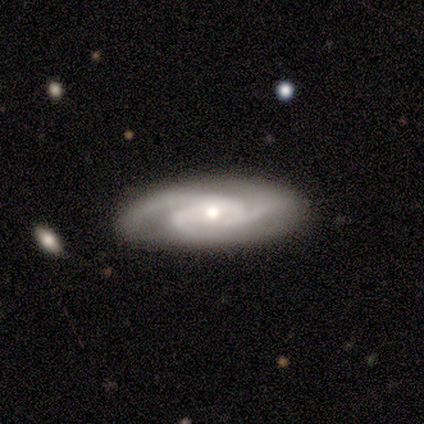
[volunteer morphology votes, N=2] Smooth or featured? 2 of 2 (100%) said featured or disk. Edge-on disk? 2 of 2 (100%) said no. Bar? 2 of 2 (100%) said no. Spiral arms? 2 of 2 (100%) said yes. Spiral winding? 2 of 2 (100%) said tight. Spiral arm count? 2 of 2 (100%) said 3. Bulge size? 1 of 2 (50%, tied with moderate) said large. Merging? 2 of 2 (100%) said none.